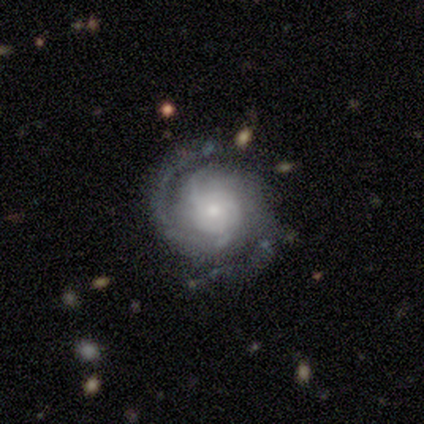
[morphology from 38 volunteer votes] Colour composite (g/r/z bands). It shows a featured or disk galaxy (82%) with no bar (63%), 2 (90%) tight (60%) spiral arms (100%) and a small central bulge (63%). Merging: none (89%).